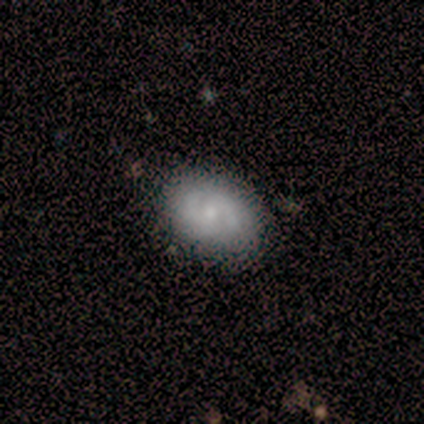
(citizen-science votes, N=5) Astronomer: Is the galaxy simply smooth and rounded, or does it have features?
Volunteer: featured or disk — 80%.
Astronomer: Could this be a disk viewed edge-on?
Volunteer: no — 100%.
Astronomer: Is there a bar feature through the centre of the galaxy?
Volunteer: no — 50%.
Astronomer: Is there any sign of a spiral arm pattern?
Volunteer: yes — 100%.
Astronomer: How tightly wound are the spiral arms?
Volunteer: tight — 50%.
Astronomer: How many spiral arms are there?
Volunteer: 2 — 50%.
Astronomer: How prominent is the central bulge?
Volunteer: small — 75%.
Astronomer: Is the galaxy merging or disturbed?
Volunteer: none — 100%.